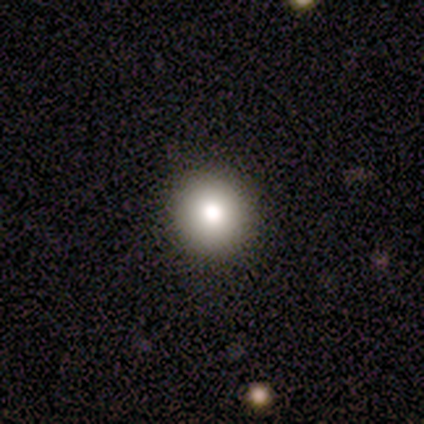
This is clearly a smooth galaxy (80%). How rounded: clearly round (100%). Merging: clearly none (100%).